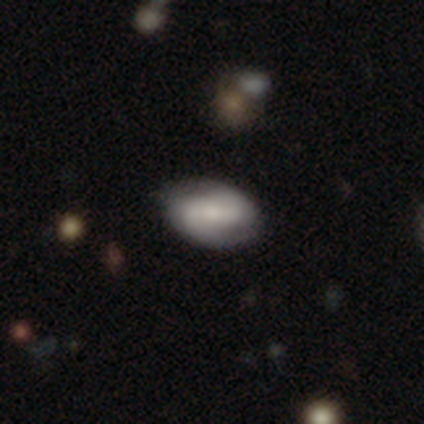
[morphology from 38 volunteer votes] Smooth or featured: featured or disk — 61% (smooth — 37%)
Edge-on disk: no — 96% (yes — 4%)
Bar: strong — 45% (no — 36%)
Spiral arms: yes — 100%
Spiral winding: tight — 50% (medium — 41%)
Spiral arm count: 2 — 95% (can't tell — 5%)
Bulge size: moderate — 45% (small — 32%)
Merging: none — 84% (minor disturbance — 16%)